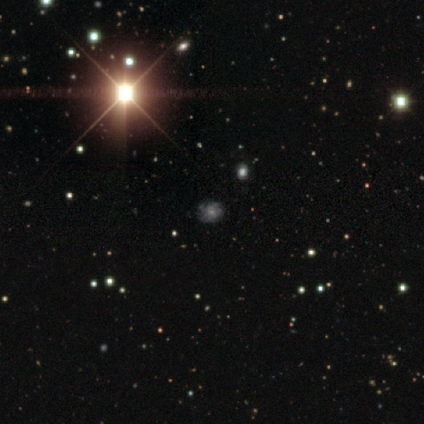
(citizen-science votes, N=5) featured or disk 60%, smooth 20%, star or artifact 20%. Down the decision tree: edge-on disk — no (100%); bar — weak (67%); spiral arms — yes (100%); spiral arm count — can't tell (100%); spiral winding — tight (67%); bulge size — moderate (67%); merging — none (75%).